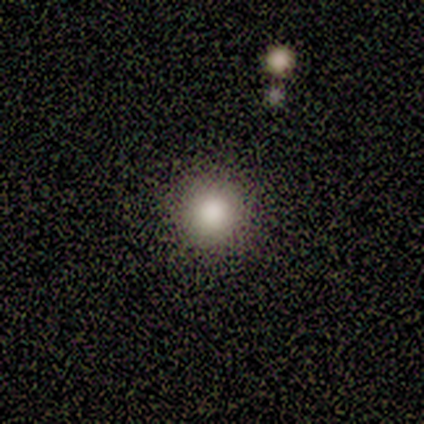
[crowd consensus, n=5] Smooth or featured: smooth — 100%
How rounded: round — 80% (cigar-shaped — 20%)
Merging: none — 80% (minor disturbance — 20%)